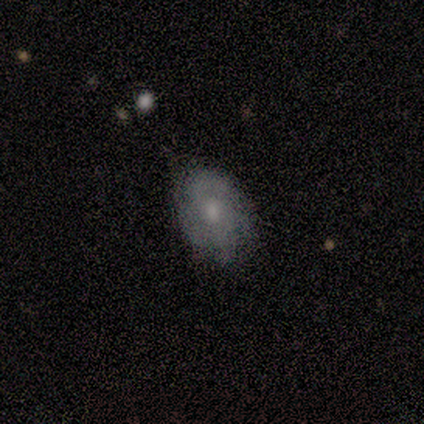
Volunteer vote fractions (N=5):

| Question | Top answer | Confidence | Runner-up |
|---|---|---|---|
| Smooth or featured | featured or disk | 60% | smooth (40%) |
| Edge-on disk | no | 100% | — |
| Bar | no | 67% | strong (33%) |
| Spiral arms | yes | 100% | — |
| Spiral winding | medium | 67% | tight (33%) |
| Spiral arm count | can't tell | 67% | 2 (33%) |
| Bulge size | moderate | 67% | small (33%) |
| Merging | none | 60% | minor disturbance (20%) |